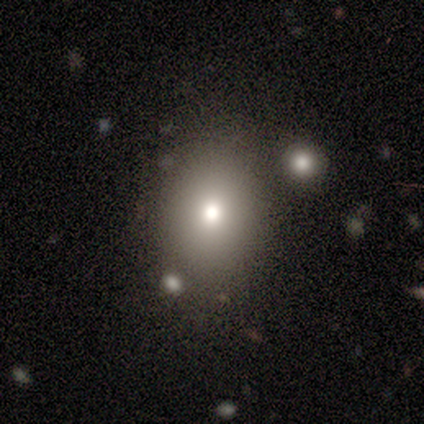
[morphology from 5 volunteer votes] This appears to be a smooth galaxy with no disk features (60%) that is in between round and cigar-shaped (100%). Merging: none (100%).